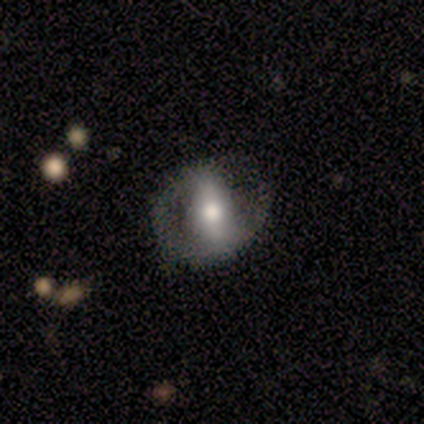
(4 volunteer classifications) featured or disk 75%, smooth 25%, star or artifact 0%. Down the decision tree: edge-on disk — no (100%); bar — strong (67%); spiral arms — yes (100%); spiral arm count — 1 (33%, tied with 2 and can't tell); spiral winding — medium (67%); bulge size — moderate (67%); merging — none (75%).